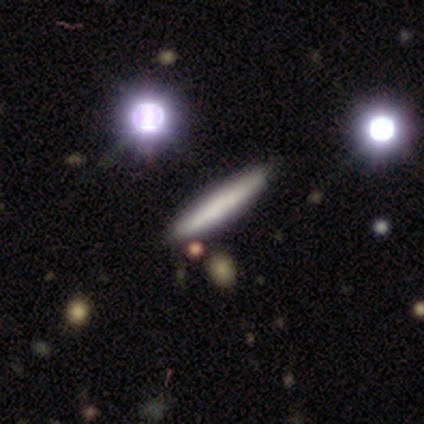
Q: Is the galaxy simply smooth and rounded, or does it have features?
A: smooth — 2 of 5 (40%, tied with featured or disk).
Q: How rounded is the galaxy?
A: cigar-shaped — 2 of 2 (100%).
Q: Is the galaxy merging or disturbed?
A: none — 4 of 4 (100%).